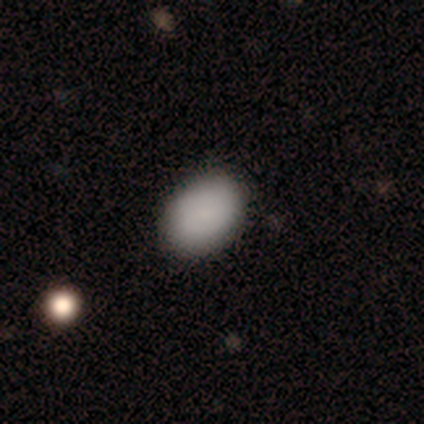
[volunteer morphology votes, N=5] Smooth or featured: smooth — 80% (featured or disk — 20%)
How rounded: in between — 100%
Merging: none — 100%